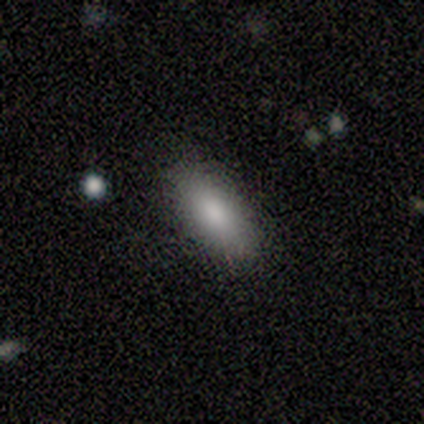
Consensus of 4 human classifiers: Overall: smooth (75%). How rounded: in between (100%). Merging: none (100%).